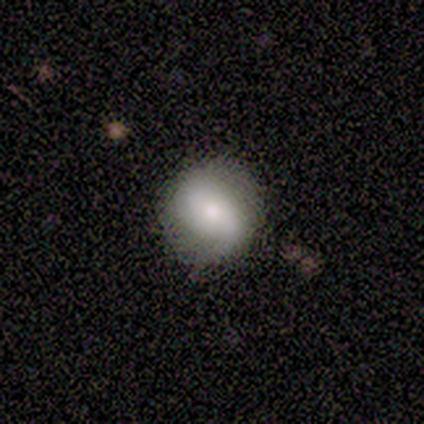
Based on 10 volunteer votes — Morphology: type=smooth (70%); roundness=round (57%); merging=none (50%).